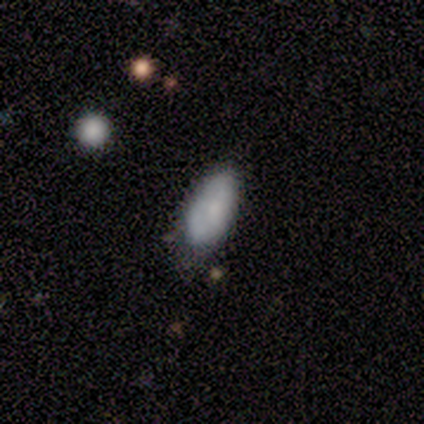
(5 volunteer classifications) smooth_or_featured: smooth (p=0.60) [alt: featured or disk p=0.40]
how_rounded: in between (p=1.00)
merging: none (p=0.60) [alt: minor disturbance p=0.40]